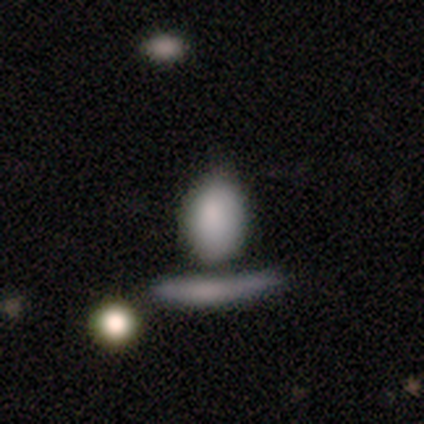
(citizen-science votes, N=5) smooth 100%, featured or disk 0%, star or artifact 0%. Down the decision tree: how rounded — in between (80%); merging — none (60%).